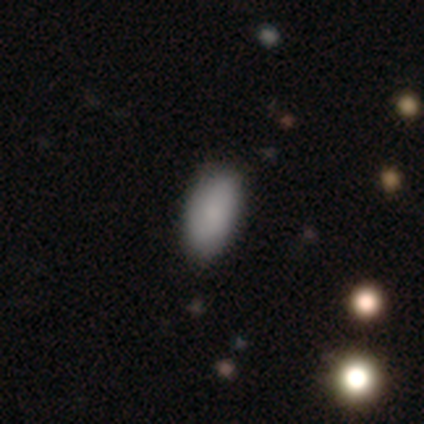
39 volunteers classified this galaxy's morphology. Overall: smooth (82%). How rounded: in between (100%). Merging: none (71%).